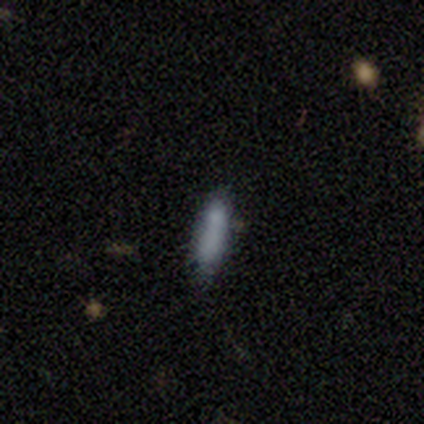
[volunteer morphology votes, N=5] Smooth or featured?
  - smooth: 100% *
  - featured or disk: 0%
  - star or artifact: 0%
How rounded?
  - cigar-shaped: 100% *
  - round: 0%
  - in between: 0%
Merging?
  - none: 80% *
  - minor disturbance: 20%
  - major disturbance: 0%
  - merger: 0%